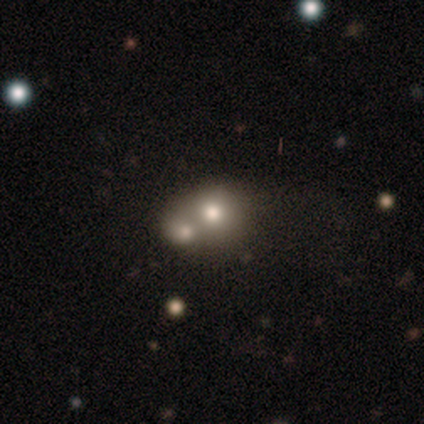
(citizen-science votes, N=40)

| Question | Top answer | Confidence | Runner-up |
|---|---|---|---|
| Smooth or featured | smooth | 55% | featured or disk (25%) |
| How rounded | round | 77% | in between (18%) |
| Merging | merger | 66% | none (16%) |